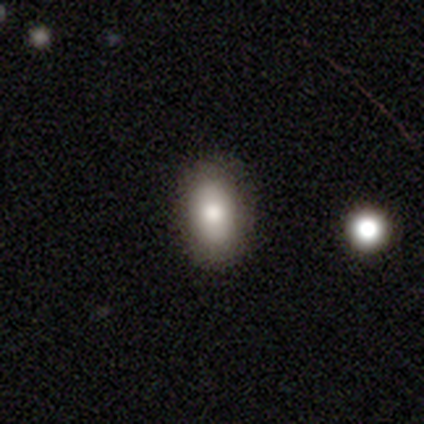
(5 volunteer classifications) Overall: smooth (60%; star or artifact 40%). How rounded: in between (100%). Merging: none (67%; minor disturbance 33%).